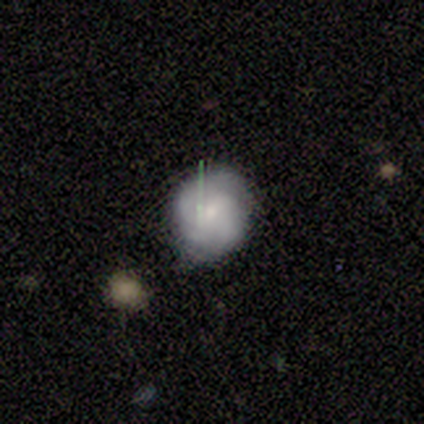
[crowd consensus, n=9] Smooth or featured? smooth (67%)
How rounded? round (50%, tied with in between)
Merging? none (62%)